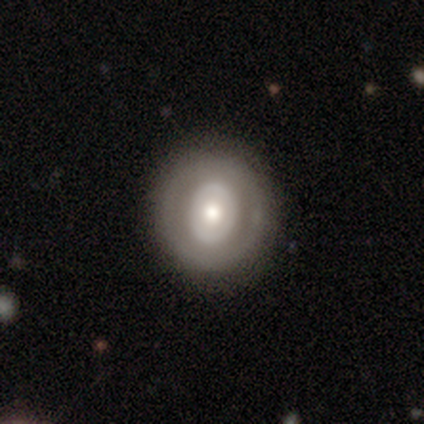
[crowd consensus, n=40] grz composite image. It shows a featured or disk galaxy (57%) with no bar (71%), no spiral arms (86%) and a moderate central bulge (67%). Merging: none (95%).